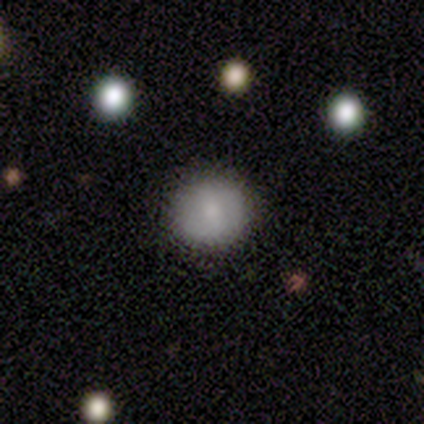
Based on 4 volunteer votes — Smooth or featured? smooth (50%, tied with featured or disk)
How rounded? round (100%)
Merging? none (100%)